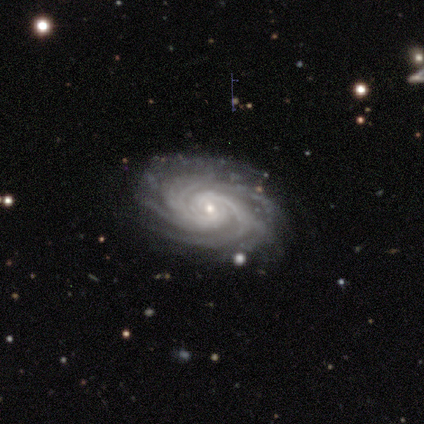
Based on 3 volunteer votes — Overall: featured or disk (100%). Edge-on disk: no (100%). Bar: no (67%; strong 33%). Spiral arms: yes (100%). Spiral arm count: can't tell (67%; more than 4 33%). Spiral winding: tight (67%; medium 33%). Bulge size: small (67%; moderate 33%). Merging: none (100%).